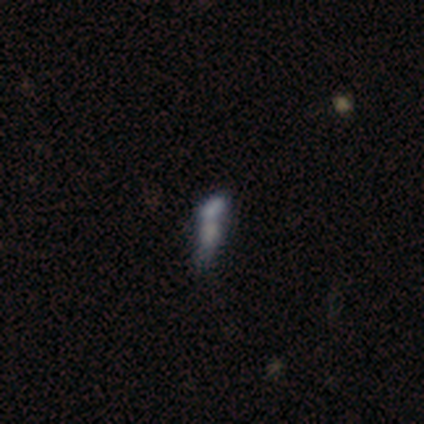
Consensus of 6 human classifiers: A smooth galaxy with no disk features (67%) that is in between round and cigar-shaped (50%, tied with cigar-shaped). Merging: merger (75%).